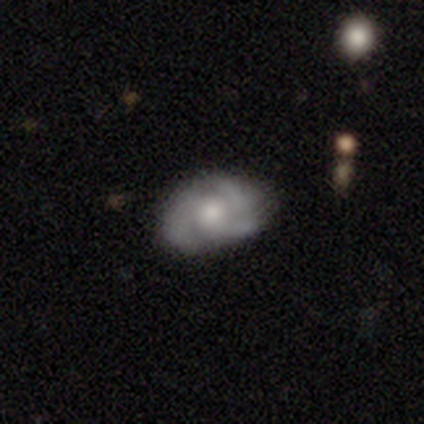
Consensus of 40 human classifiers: smooth_or_featured: featured or disk (p=0.75) [alt: smooth p=0.23]
disk_edge_on: no (p=0.97) [alt: yes p=0.03]
bar: no (p=0.66) [alt: weak p=0.34]
has_spiral_arms: yes (p=0.97) [alt: no p=0.03]
spiral_winding: medium (p=0.46) [alt: tight p=0.43]
spiral_arm_count: 3 (p=0.57) [alt: 2 p=0.21]
bulge_size: moderate (p=0.48) [alt: small p=0.38]
merging: none (p=0.74) [alt: minor disturbance p=0.15]